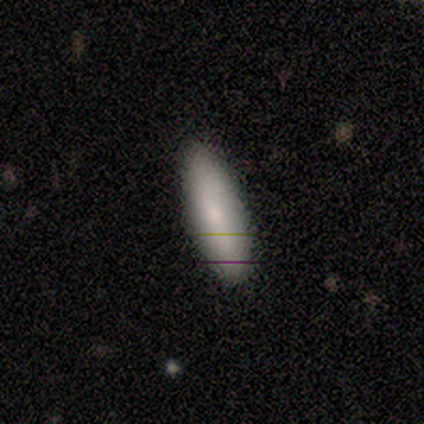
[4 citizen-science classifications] Volunteers were most divided on "spiral arms" (2-way tie): yes: 50%, no: 50%. More confident: bar — no (100%); spiral winding — tight (100%); spiral arm count — can't tell (100%); bulge size — small (100%); merging — none (100%); smooth or featured — featured or disk (75%); edge-on disk — no (67%).